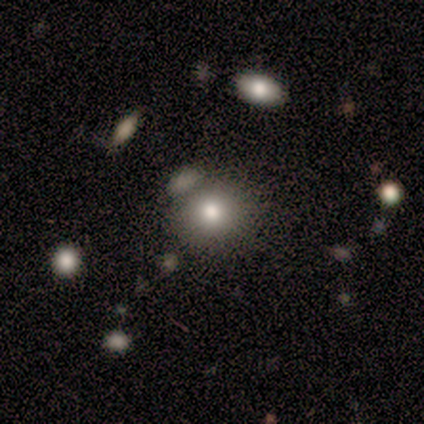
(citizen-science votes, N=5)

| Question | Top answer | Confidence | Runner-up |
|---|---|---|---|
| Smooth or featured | smooth | 100% | — |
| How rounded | round | 100% | — |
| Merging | merger | 60% | none (40%) |